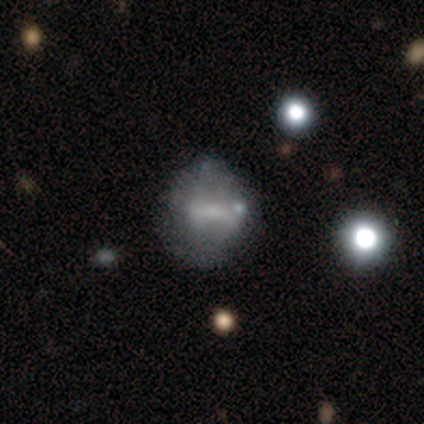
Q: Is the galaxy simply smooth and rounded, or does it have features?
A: featured or disk — 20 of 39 (51%).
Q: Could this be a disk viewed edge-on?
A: no — 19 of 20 (95%).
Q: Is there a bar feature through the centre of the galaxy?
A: strong — 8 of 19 (42%).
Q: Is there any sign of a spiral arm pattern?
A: no — 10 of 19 (53%).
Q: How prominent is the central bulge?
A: none — 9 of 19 (47%).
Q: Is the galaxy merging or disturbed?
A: none — 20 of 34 (59%).